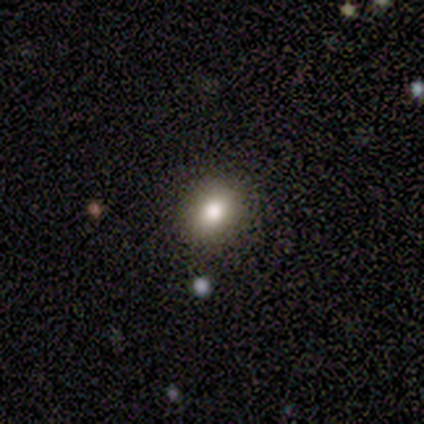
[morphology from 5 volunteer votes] Smooth or featured? smooth (80%)
How rounded? round (50%, tied with in between)
Merging? none (100%)